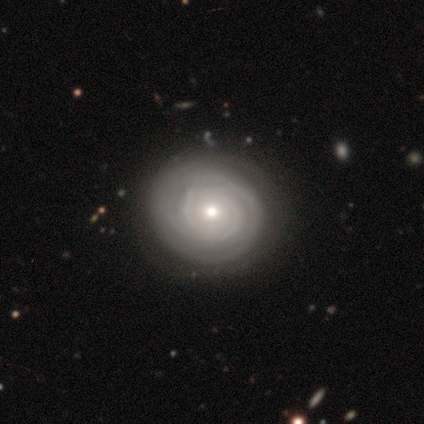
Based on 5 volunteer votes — Smooth or featured? 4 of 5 (80%) said featured or disk. Edge-on disk? 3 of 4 (75%) said no. Bar? 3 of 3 (100%) said no. Spiral arms? 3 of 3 (100%) said no. Bulge size? 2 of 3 (67%) said moderate. Merging? 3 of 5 (60%) said none.